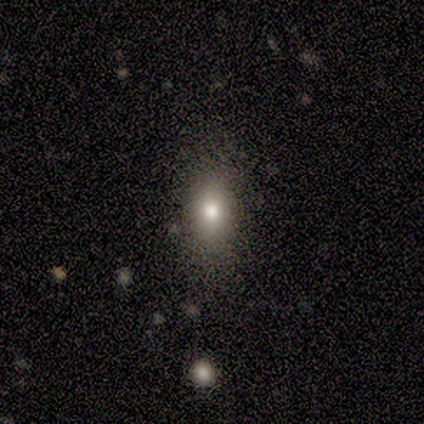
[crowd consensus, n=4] A smooth galaxy with no disk features (75%) that is in between round and cigar-shaped (100%). Merging: none (50%).